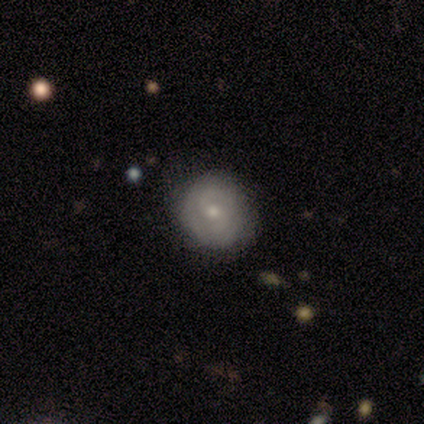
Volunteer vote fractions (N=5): Q: Smooth or featured?
A: featured or disk (80%); runner-up: star or artifact (20%)
Q: Edge-on disk?
A: no (100%)
Q: Bar?
A: no (100%)
Q: Spiral arms?
A: yes (100%)
Q: Spiral winding?
A: tight (50%); runner-up: medium (25%)
Q: Spiral arm count?
A: 2 (50%); tied with: can't tell (50%)
Q: Bulge size?
A: moderate (75%); runner-up: small (25%)
Q: Merging?
A: none (100%)